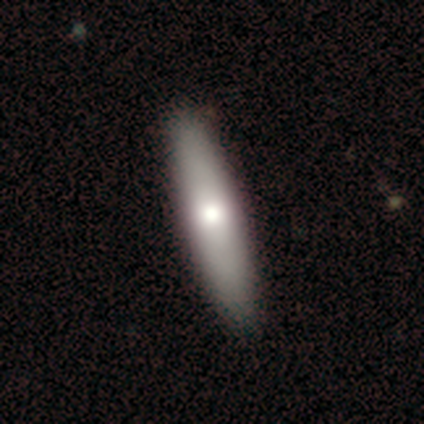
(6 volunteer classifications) Smooth or featured? smooth (67%)
How rounded? cigar-shaped (75%)
Merging? none (100%)